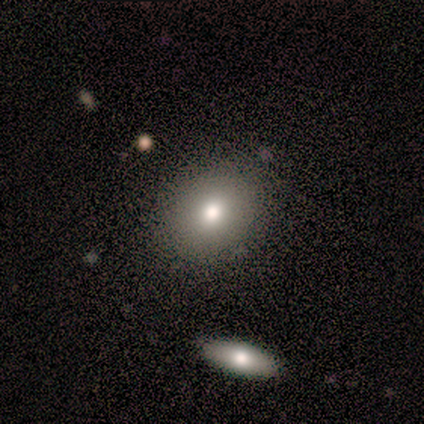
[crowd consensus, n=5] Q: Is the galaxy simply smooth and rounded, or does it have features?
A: smooth — 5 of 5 (100%).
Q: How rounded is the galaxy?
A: round — 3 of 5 (60%).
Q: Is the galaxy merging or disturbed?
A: none — 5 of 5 (100%).